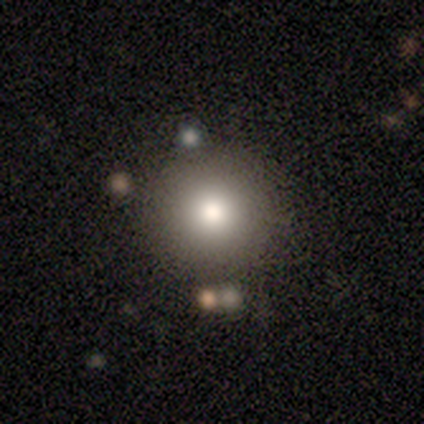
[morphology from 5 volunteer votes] smooth 60%, featured or disk 40%, star or artifact 0%. Down the decision tree: how rounded — round (100%); merging — none (60%).